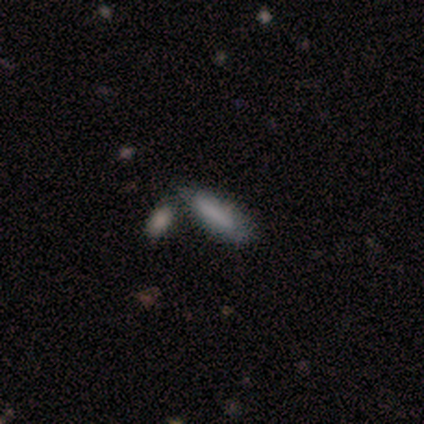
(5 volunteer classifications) Smooth or featured? smooth (40%, tied with featured or disk)
How rounded? cigar-shaped (100%)
Merging? none (50%)